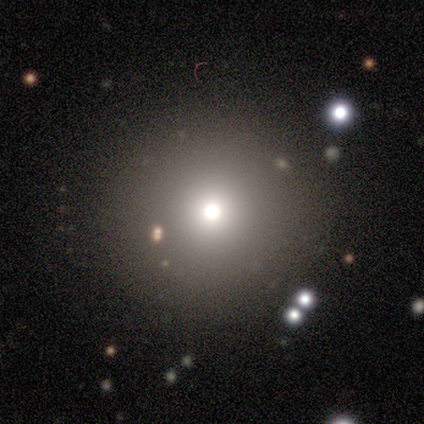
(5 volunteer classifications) A smooth galaxy with no disk features (60%) that is round (67%). Merging: none (75%).